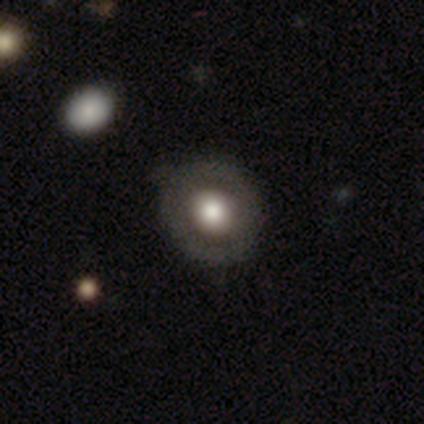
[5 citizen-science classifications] This is likely a featured or disk galaxy (60%). It is clearly not viewed edge-on (100%). Bar: clearly no (100%). Spiral arm pattern: clearly no (100%). Central bulge: likely large (67%). Merging: clearly none (80%).